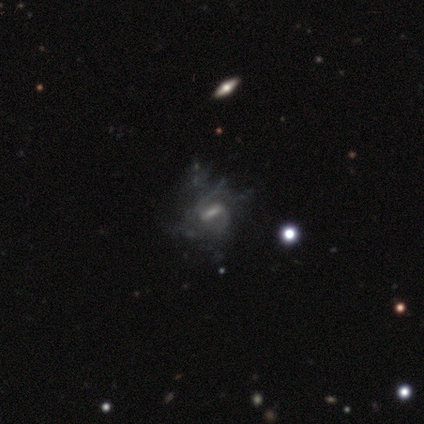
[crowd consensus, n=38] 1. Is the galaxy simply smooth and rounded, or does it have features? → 87% featured or disk, 11% star or artifact, 3% smooth.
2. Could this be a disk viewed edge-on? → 100% no, 0% yes.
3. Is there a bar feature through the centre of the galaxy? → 45% strong, 42% weak, 12% no.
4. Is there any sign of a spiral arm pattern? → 70% yes, 30% no.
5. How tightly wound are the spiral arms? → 43% loose, 30% tight, 26% medium.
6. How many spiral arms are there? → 43% 2 (tied), 43% can't tell (tied), 4% 1, 4% 3, 4% 4, 0% more than 4.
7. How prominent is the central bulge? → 52% none, 27% moderate, 15% small, 6% large, 0% dominant.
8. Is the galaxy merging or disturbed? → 41% major disturbance, 26% none, 6% minor disturbance, 6% merger.